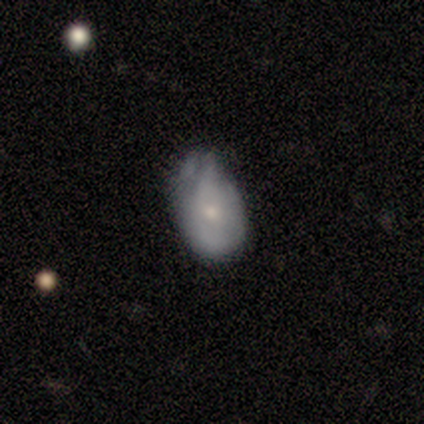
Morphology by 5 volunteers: Q: Smooth or featured?
A: smooth (60%); runner-up: featured or disk (40%)
Q: How rounded?
A: in between (67%); runner-up: round (33%)
Q: Merging?
A: none (40%); tied with: minor disturbance (40%)